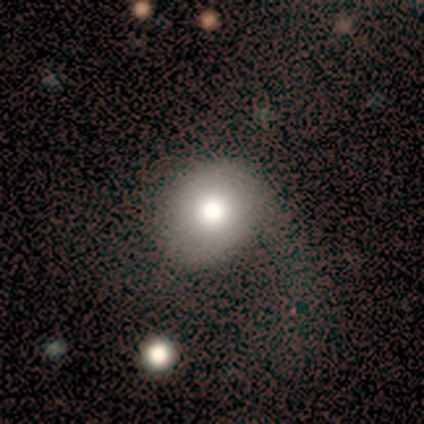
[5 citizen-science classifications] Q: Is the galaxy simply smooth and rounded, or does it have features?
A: smooth — 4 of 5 (80%).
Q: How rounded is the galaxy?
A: in between — 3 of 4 (75%).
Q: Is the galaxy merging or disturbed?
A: none — 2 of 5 (40%, tied with minor disturbance).